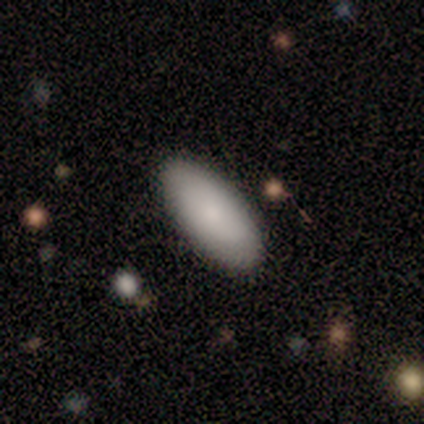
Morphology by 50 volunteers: smooth-or-featured: smooth: 84% | featured or disk: 16% | star or artifact: 0%
  how-rounded: in between: 95% | cigar-shaped: 5% | round: 0%
  merging: none: 86% | minor disturbance: 14% | major disturbance: 0% | merger: 0%